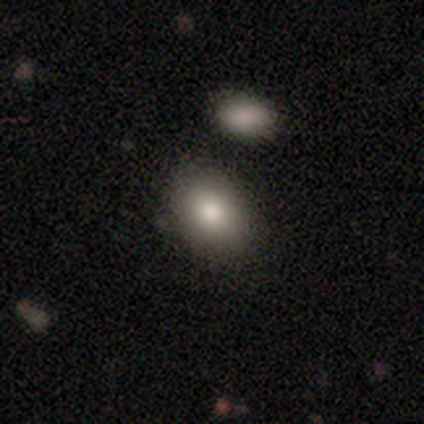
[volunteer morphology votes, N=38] Overall: smooth (76%). How rounded: in between (66%; round 31%). Merging: none (68%).